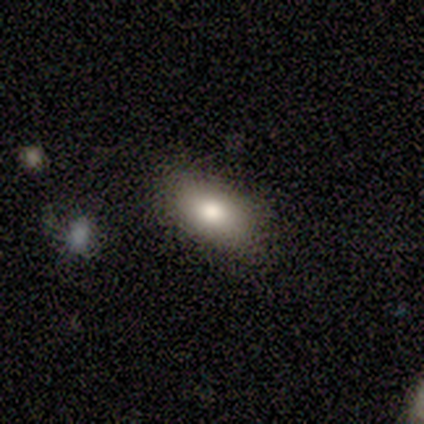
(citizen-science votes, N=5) smooth_or_featured: smooth (p=0.80) [alt: featured or disk p=0.20]
how_rounded: in between (p=1.00)
merging: none (p=0.80) [alt: major disturbance p=0.20]